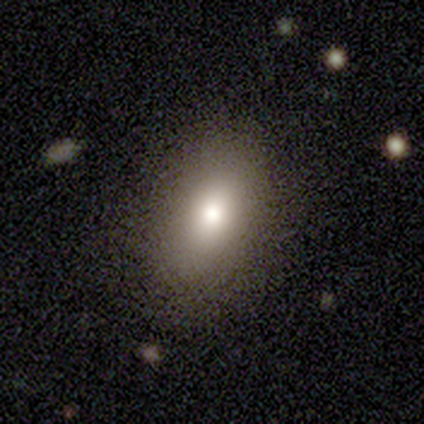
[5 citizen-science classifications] Smooth or featured? smooth (100%)
How rounded? round (40%, tied with in between)
Merging? none (80%)